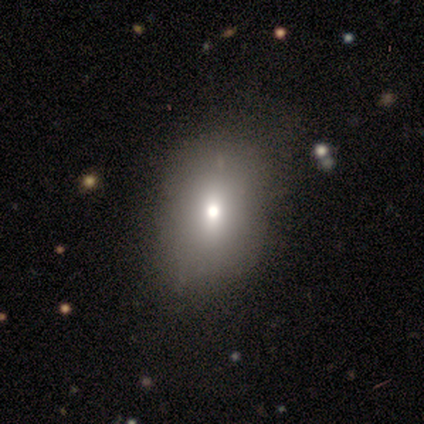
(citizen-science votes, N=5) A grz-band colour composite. It shows a smooth galaxy with no disk features (80%) that is in between round and cigar-shaped (75%). Merging: none (75%).